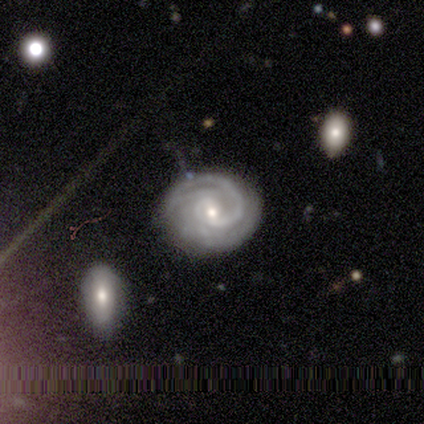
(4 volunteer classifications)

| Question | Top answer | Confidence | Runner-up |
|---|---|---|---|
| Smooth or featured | featured or disk | 100% | — |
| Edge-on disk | no | 100% | — |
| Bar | weak | 100% | — |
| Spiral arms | yes | 100% | — |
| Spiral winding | tight | 75% | loose (25%) |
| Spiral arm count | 2 | 75% | 1 (25%) |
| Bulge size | moderate | 75% | small (25%) |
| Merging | none | 75% | major disturbance (25%) |